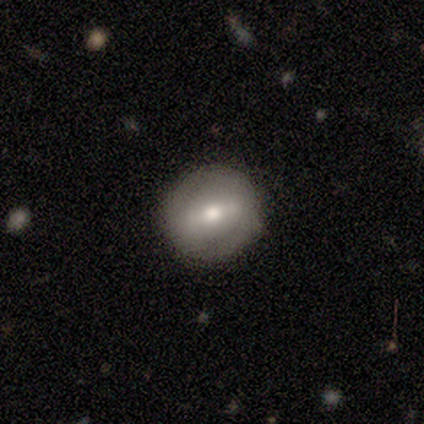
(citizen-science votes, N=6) A featured or disk galaxy (67%) with a weak bar (50%), no spiral arms (75%) and a moderate central bulge (100%).

Vote fractions:
- Smooth or featured? featured or disk: 67% / smooth: 33% / star or artifact: 0%
- Edge-on disk? no: 100% / yes: 0%
- Bar? weak: 50% / strong: 25% / no: 25%
- Spiral arms? no: 75% / yes: 25%
- Bulge size? moderate: 100% / dominant: 0% / large: 0% / small: 0% / none: 0%
- Merging? none: 83% / minor disturbance: 17% / major disturbance: 0% / merger: 0%